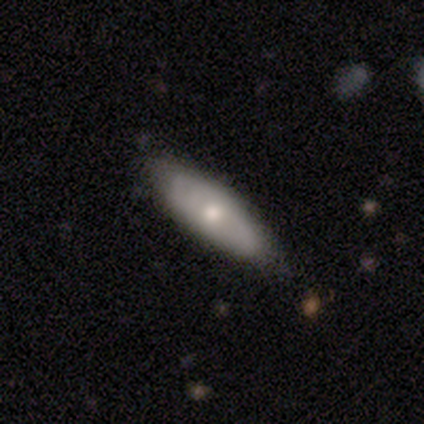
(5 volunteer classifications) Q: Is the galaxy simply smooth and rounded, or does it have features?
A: smooth — 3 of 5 (60%).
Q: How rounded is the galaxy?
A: in between — 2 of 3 (67%).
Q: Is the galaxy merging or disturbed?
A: none — 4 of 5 (80%).